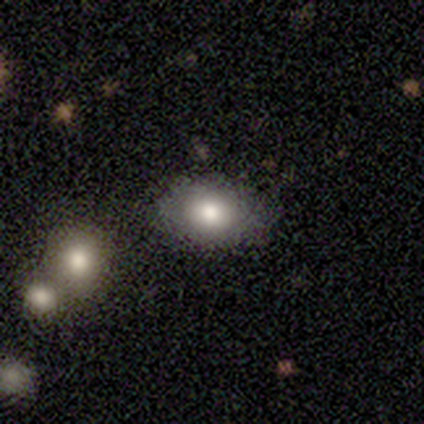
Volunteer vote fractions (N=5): Volunteers were most divided on "how rounded": round: 60%, in between: 40%, cigar-shaped: 0%. More confident: smooth or featured — smooth (100%); merging — none (100%).